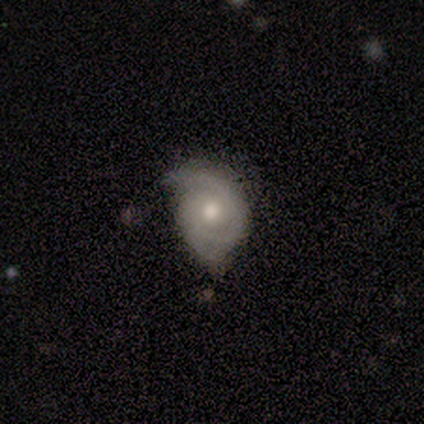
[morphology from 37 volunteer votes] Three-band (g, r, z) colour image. It shows a featured or disk galaxy (73%) with no bar (81%), 2 (61%) tight (78%) spiral arms (85%) and a moderate central bulge (74%). Merging: none (66%).